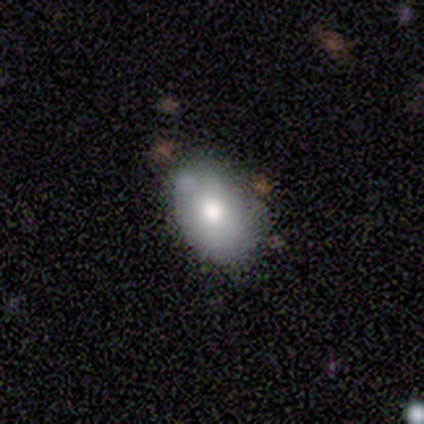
Smooth or featured? 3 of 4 (75%) said smooth. How rounded? 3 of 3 (100%) said in between. Merging? 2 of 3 (67%) said none.